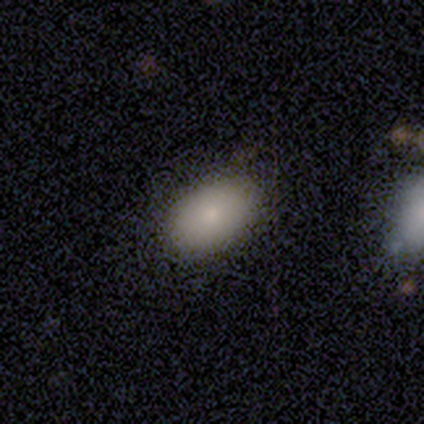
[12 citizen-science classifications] A smooth galaxy with no disk features (100%) that is in between round and cigar-shaped (92%).

Vote fractions:
- Smooth or featured? smooth: 100% / featured or disk: 0% / star or artifact: 0%
- How rounded? in between: 92% / round: 8% / cigar-shaped: 0%
- Merging? none: 100% / minor disturbance: 0% / major disturbance: 0% / merger: 0%